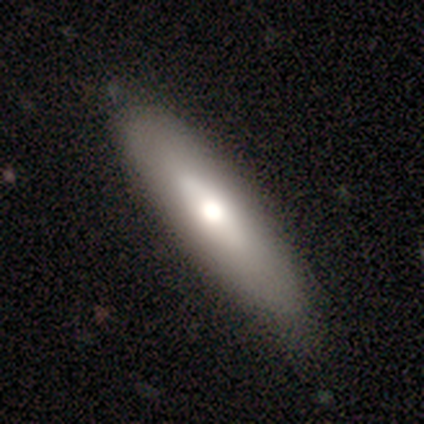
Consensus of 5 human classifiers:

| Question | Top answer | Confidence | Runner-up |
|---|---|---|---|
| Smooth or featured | featured or disk | 60% | smooth (20%) |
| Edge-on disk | no | 67% | yes (33%) |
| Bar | weak | 50% | tied: no (50%) |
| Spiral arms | no | 100% | — |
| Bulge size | dominant | 50% | tied: moderate (50%) |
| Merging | none | 100% | — |